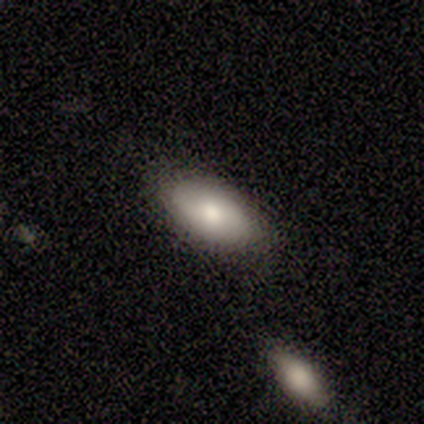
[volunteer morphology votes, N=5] Overall: smooth (80%). How rounded: in between (100%). Merging: none (40%, tied with minor disturbance).